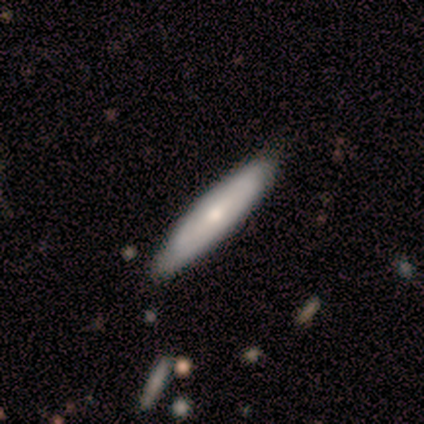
smooth 60%, featured or disk 20%, star or artifact 20%. Down the decision tree: how rounded — cigar-shaped (100%); merging — none (50%, tied with minor disturbance).